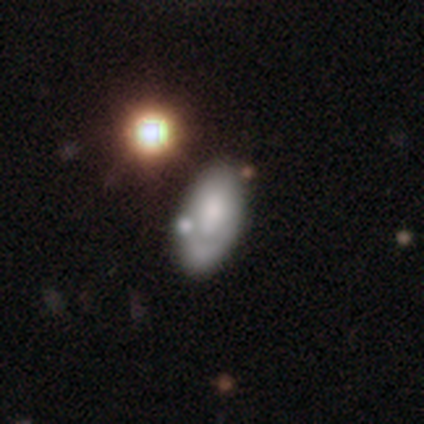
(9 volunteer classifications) This appears to be a smooth galaxy with no disk features (56%) that is in between round and cigar-shaped (100%). Merging: none (33%, tied with minor disturbance).